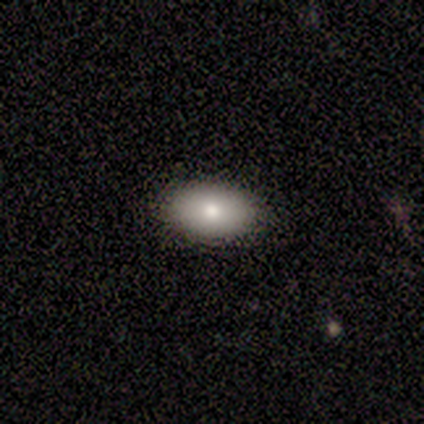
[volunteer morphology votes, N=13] Q: Smooth or featured?
A: smooth (92%); runner-up: featured or disk (8%)
Q: How rounded?
A: in between (92%); runner-up: round (8%)
Q: Merging?
A: none (92%); runner-up: minor disturbance (8%)